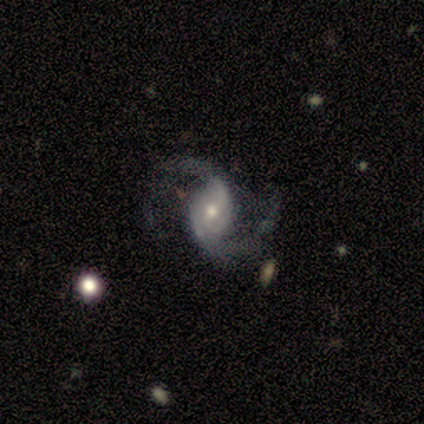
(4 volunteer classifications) This appears to be a featured or disk galaxy (100%) with a weak bar (50%, tied with no), 2 (100%) loose (75%) spiral arms (100%) and a small central bulge (75%). Merging: none (50%, tied with minor disturbance).